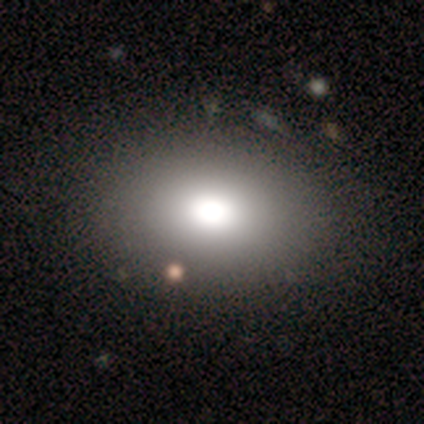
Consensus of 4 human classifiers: smooth-or-featured: featured or disk: 75% | smooth: 25% | star or artifact: 0%
  disk-edge-on: no: 100% | yes: 0%
    bar: no: 100% | strong: 0% | weak: 0%
    has-spiral-arms: no: 100% | yes: 0%
    bulge-size: moderate: 67% | dominant: 33% | large: 0% | small: 0% | none: 0%
  merging: none: 100% | minor disturbance: 0% | major disturbance: 0% | merger: 0%